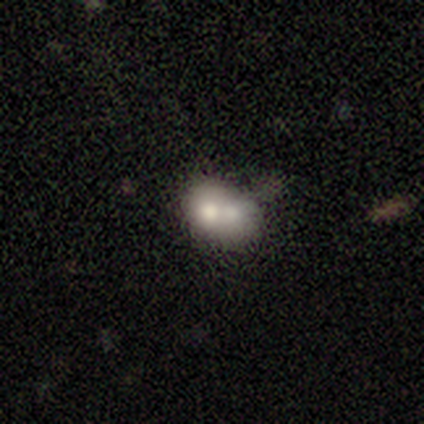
Q: Smooth or featured?
A: smooth (100%)
Q: How rounded?
A: round (50%); tied with: in between (50%)
Q: Merging?
A: merger (83%); runner-up: minor disturbance (17%)